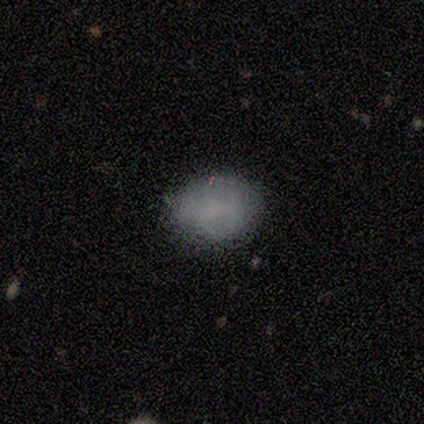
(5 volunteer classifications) This is clearly a smooth galaxy (100%). How rounded: clearly in between (80%). Merging: clearly none (100%).